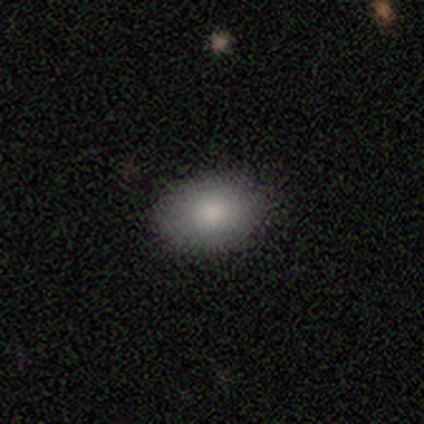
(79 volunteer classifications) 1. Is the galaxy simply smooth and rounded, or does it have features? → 86% smooth, 9% featured or disk, 5% star or artifact.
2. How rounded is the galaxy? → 81% in between, 18% round, 1% cigar-shaped.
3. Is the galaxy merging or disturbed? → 43% none, 7% minor disturbance, 1% major disturbance, 0% merger.